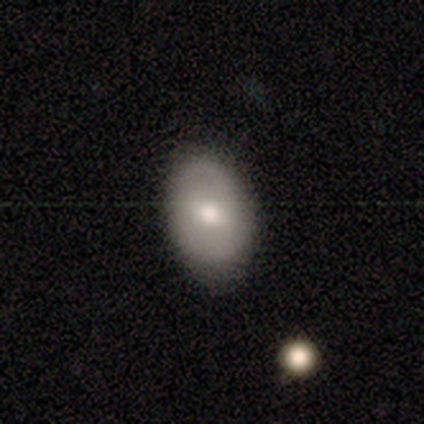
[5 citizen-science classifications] A featured or disk galaxy (60%) with a strong bar (67%), 2 (100%) medium (67%) spiral arms (100%) and a moderate central bulge (100%).

Vote fractions:
- Smooth or featured? featured or disk: 60% / smooth: 40% / star or artifact: 0%
- Edge-on disk? no: 100% / yes: 0%
- Bar? strong: 67% / weak: 33% / no: 0%
- Spiral arms? yes: 100% / no: 0%
- Spiral winding? medium: 67% / tight: 33% / loose: 0%
- Spiral arm count? 2: 100% / 1: 0% / 3: 0% / 4: 0% / more than 4: 0% / can't tell: 0%
- Bulge size? moderate: 100% / dominant: 0% / large: 0% / small: 0% / none: 0%
- Merging? none: 100% / minor disturbance: 0% / major disturbance: 0% / merger: 0%